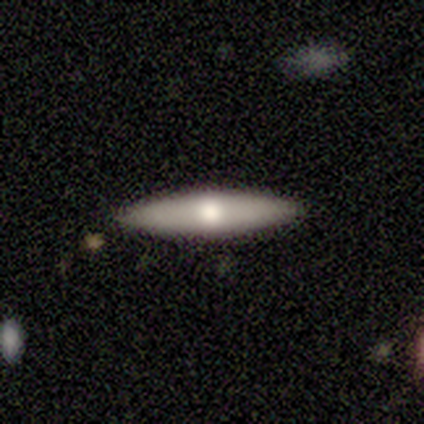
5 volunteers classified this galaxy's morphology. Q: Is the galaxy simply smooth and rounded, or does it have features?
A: smooth — 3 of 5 (60%).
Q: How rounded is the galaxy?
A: cigar-shaped — 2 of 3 (67%).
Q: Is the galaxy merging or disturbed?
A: none — 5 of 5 (100%).